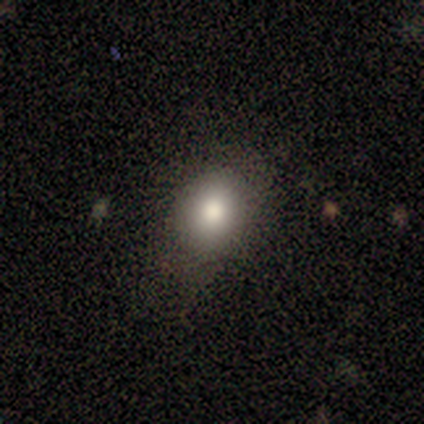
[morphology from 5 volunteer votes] Overall: smooth (80%). How rounded: round (75%). Merging: none (100%).